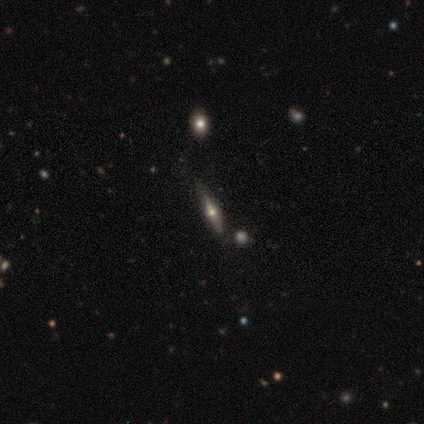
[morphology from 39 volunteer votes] A featured or disk galaxy (62%) viewed edge-on (96%) with a rounded central bulge (87%).

Vote fractions:
- Smooth or featured? featured or disk: 62% / smooth: 33% / star or artifact: 5%
- Edge-on disk? yes: 96% / no: 4%
- Edge-on bulge? rounded: 87% / none: 9% / boxy: 4%
- Merging? none: 81% / minor disturbance: 16% / major disturbance: 3% / merger: 0%